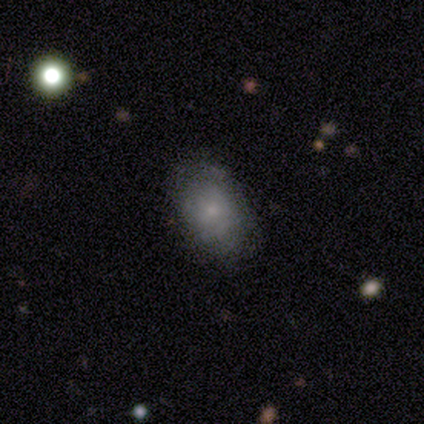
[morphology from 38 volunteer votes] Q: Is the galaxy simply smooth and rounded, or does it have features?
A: smooth — 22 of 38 (58%).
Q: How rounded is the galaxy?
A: in between — 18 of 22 (82%).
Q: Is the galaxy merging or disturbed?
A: none — 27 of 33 (82%).